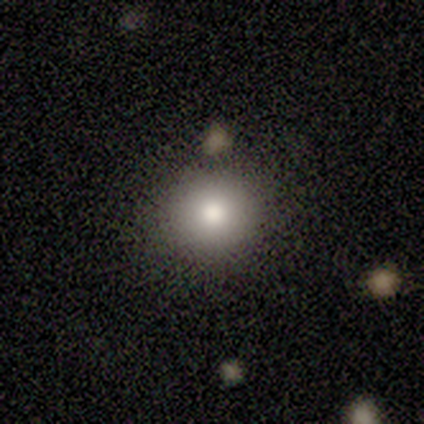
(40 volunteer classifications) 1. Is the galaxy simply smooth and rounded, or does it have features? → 82% smooth, 15% star or artifact, 2% featured or disk.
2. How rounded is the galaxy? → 97% round, 3% in between, 0% cigar-shaped.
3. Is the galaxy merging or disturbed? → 82% none, 12% merger, 3% minor disturbance, 3% major disturbance.